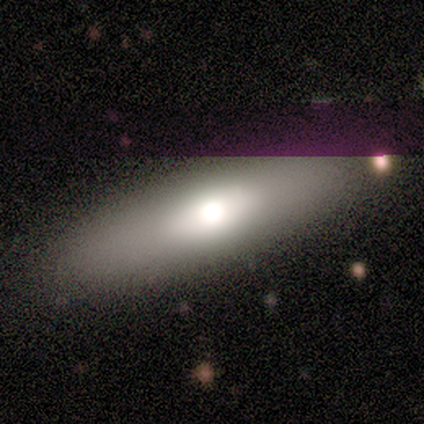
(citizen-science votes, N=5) A smooth galaxy with no disk features (80%) that is cigar-shaped (75%). Merging: none (100%).